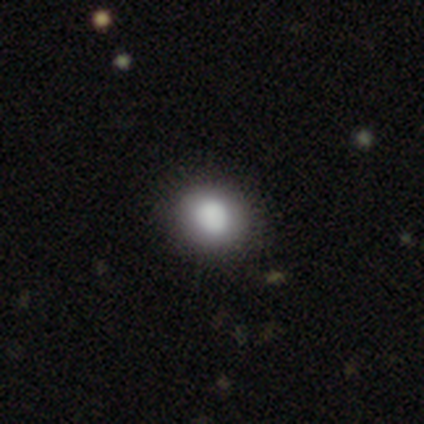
Volunteers were most divided on "smooth or featured": smooth: 60%, featured or disk: 40%, star or artifact: 0%. More confident: how rounded — round (100%); merging — none (80%).